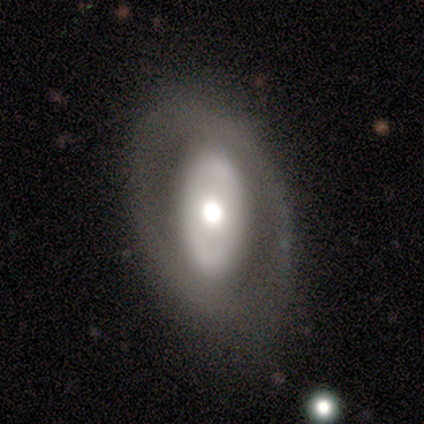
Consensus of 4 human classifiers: Smooth or featured? featured or disk (75%)
Edge-on disk? no (100%)
Bar? no (100%)
Spiral arms? no (67%)
Bulge size? moderate (67%)
Merging? none (100%)